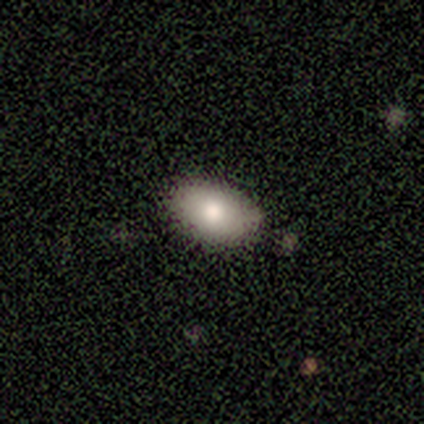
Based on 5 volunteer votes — A smooth galaxy with no disk features (100%) that is in between round and cigar-shaped (80%). Merging: none (100%).